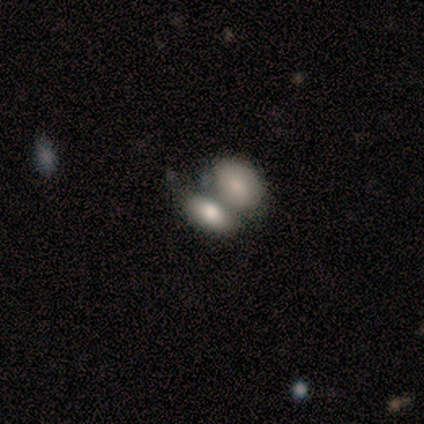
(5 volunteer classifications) smooth 80%, featured or disk 20%, star or artifact 0%. Down the decision tree: how rounded — in between (100%); merging — merger (80%).